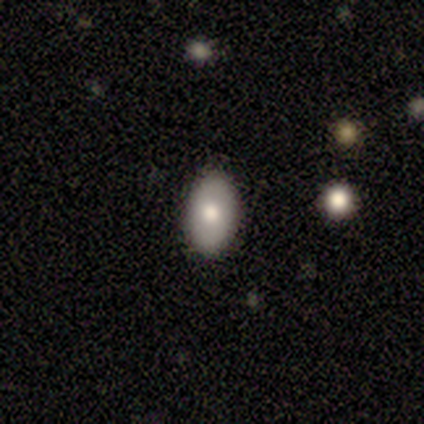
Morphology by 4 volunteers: A smooth galaxy with no disk features (75%) that is in between round and cigar-shaped (100%).

Vote fractions:
- Smooth or featured? smooth: 75% / featured or disk: 25% / star or artifact: 0%
- How rounded? in between: 100% / round: 0% / cigar-shaped: 0%
- Merging? none: 100% / minor disturbance: 0% / major disturbance: 0% / merger: 0%